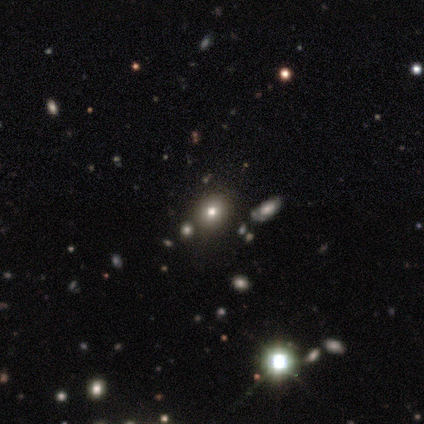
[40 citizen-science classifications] smooth_or_featured: smooth (p=0.47) [alt: star or artifact p=0.40]
how_rounded: round (p=0.63) [alt: in between p=0.32]
merging: none (p=0.88) [alt: minor disturbance p=0.08]